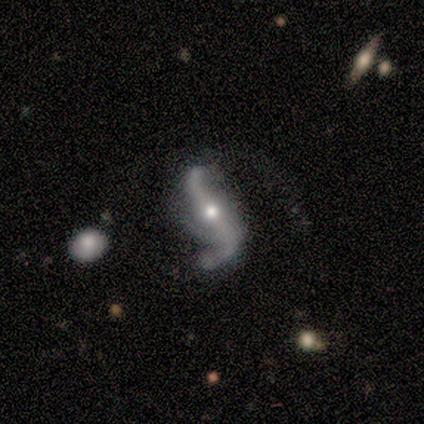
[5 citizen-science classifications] This is clearly a featured or disk galaxy (80%). It is clearly not viewed edge-on (100%). Bar: likely no (75%). Spiral arm pattern: likely yes (75%). Spiral arm count: clearly 2 (100%). Spiral winding: clearly loose (100%). Central bulge: likely small (75%). Merging: likely none (75%).